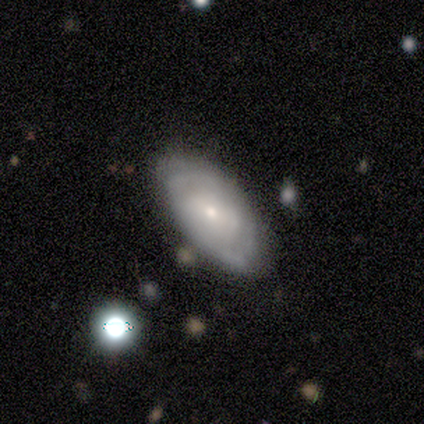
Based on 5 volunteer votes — A featured or disk galaxy (60%) with no bar (100%), no spiral arms (67%) and a small central bulge (100%). Merging: none (60%).